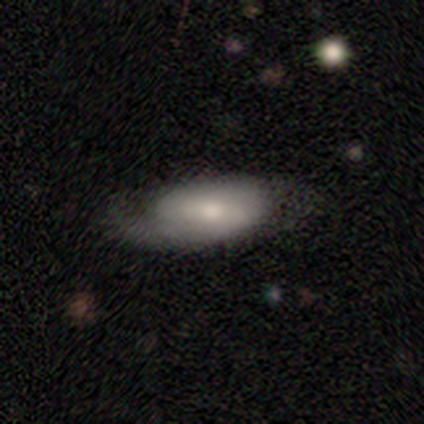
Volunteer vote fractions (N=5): This is marginally a smooth galaxy (40%, tied with featured or disk). How rounded: clearly in between (100%). Merging: likely minor disturbance (75%).